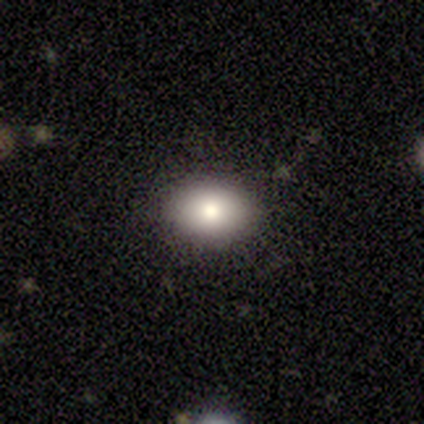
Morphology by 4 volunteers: This is likely a smooth galaxy (75%). How rounded: likely in between (67%). Merging: clearly none (100%).